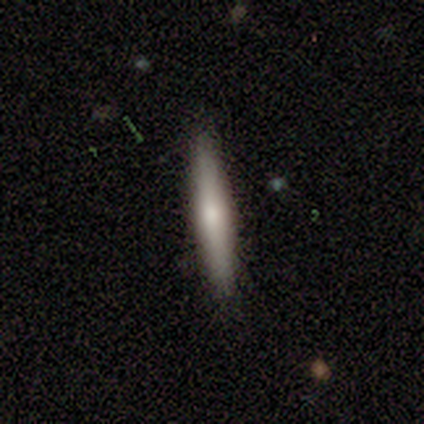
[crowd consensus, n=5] Volunteers were most divided on "smooth or featured": smooth: 60%, featured or disk: 40%, star or artifact: 0%. More confident: how rounded — cigar-shaped (100%); merging — none (100%).